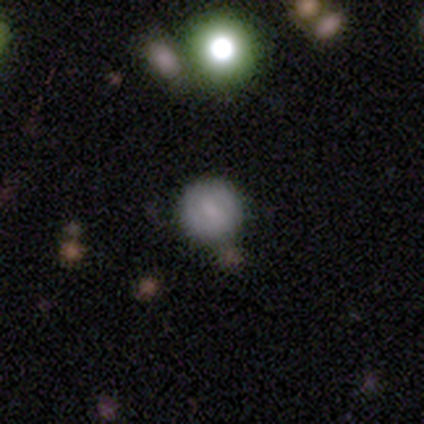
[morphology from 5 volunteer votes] A smooth galaxy with no disk features (40%, tied with featured or disk) that is round (100%).

Vote fractions:
- Smooth or featured? smooth: 40% (tied) / featured or disk: 40% (tied) / star or artifact: 20%
- How rounded? round: 100% / in between: 0% / cigar-shaped: 0%
- Merging? none: 100% / minor disturbance: 0% / major disturbance: 0% / merger: 0%